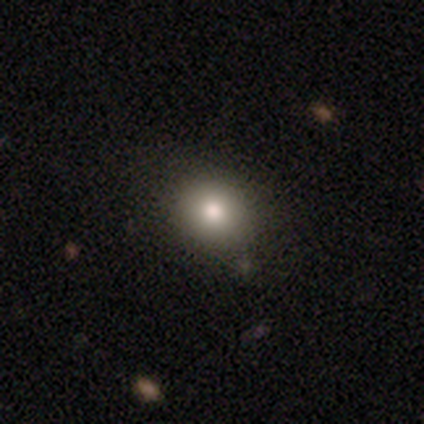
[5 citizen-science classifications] A smooth galaxy with no disk features (100%) that is round (80%).

Vote fractions:
- Smooth or featured? smooth: 100% / featured or disk: 0% / star or artifact: 0%
- How rounded? round: 80% / in between: 20% / cigar-shaped: 0%
- Merging? none: 80% / major disturbance: 20% / minor disturbance: 0% / merger: 0%